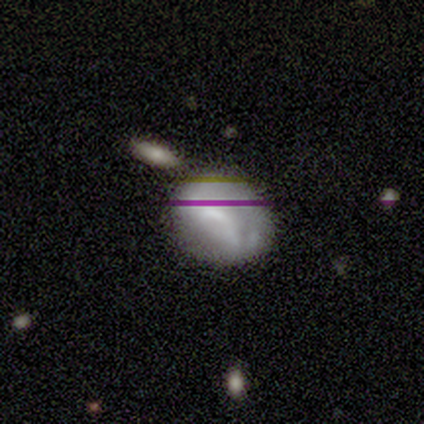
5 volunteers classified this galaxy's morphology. Smooth or featured: smooth — 100%
How rounded: round — 60% (in between — 40%)
Merging: none — 60% (minor disturbance — 20%)